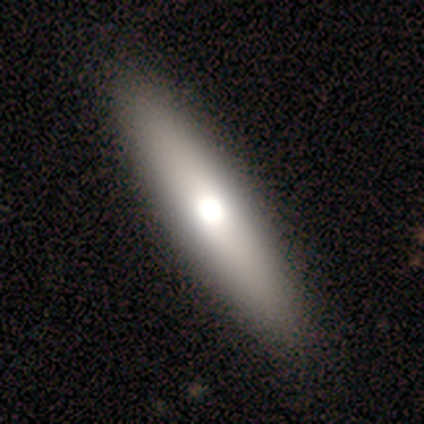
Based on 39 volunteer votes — Volunteers were most divided on "smooth or featured": smooth: 64%, featured or disk: 33%, star or artifact: 3%. More confident: how rounded — cigar-shaped (80%); merging — none (74%).